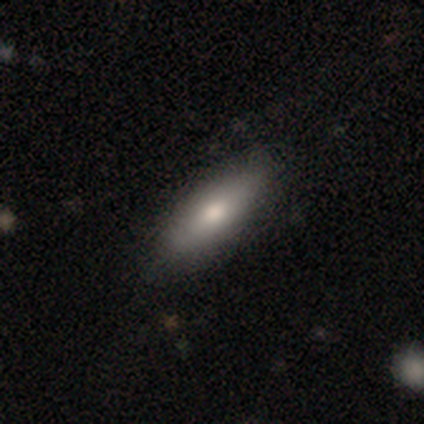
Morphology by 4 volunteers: Smooth or featured? smooth (100%)
How rounded? in between (100%)
Merging? none (100%)